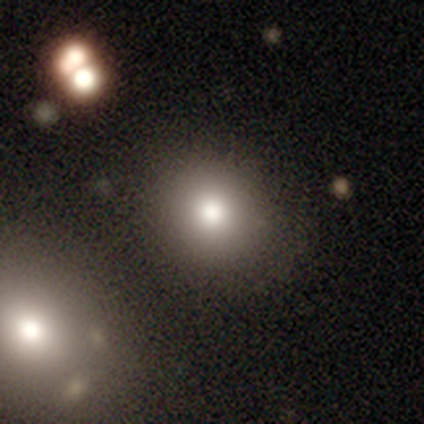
Smooth or featured? 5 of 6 (83%) said smooth. How rounded? 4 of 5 (80%) said round. Merging? 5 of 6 (83%) said none.